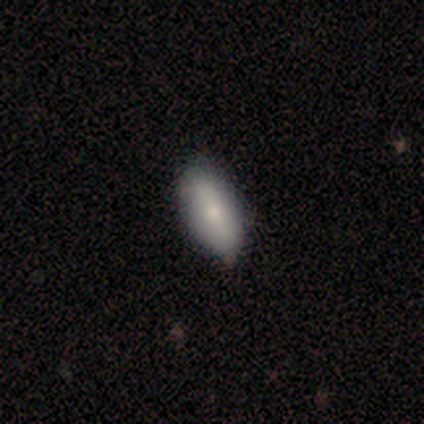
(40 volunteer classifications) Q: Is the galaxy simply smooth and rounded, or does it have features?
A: smooth — 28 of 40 (70%).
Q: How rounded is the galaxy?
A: in between — 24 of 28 (86%).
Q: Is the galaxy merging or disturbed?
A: none — 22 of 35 (63%).